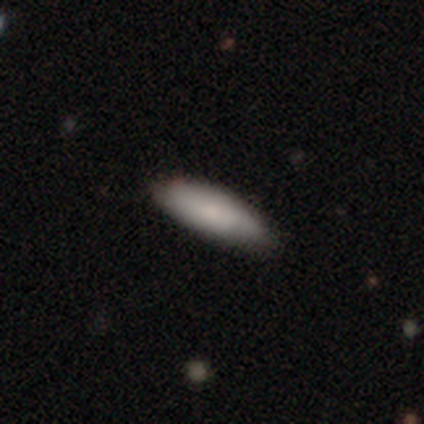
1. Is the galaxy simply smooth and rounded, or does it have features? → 80% smooth, 20% featured or disk, 0% star or artifact.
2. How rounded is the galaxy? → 75% cigar-shaped, 25% in between, 0% round.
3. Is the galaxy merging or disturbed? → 60% none, 40% minor disturbance, 0% major disturbance, 0% merger.